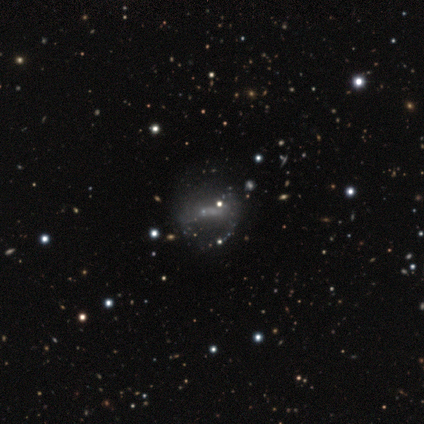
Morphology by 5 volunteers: Overall: featured or disk (40%, tied with star or artifact). Edge-on disk: no (100%). Bar: weak (50%, tied with no). Spiral arms: no (100%). Bulge size: none (100%). Merging: minor disturbance (67%; none 33%).